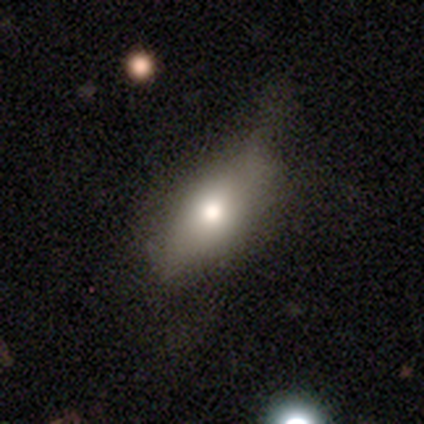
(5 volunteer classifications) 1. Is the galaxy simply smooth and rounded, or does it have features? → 100% smooth, 0% featured or disk, 0% star or artifact.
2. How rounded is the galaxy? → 100% in between, 0% round, 0% cigar-shaped.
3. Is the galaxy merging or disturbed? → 60% minor disturbance, 40% none, 0% major disturbance, 0% merger.